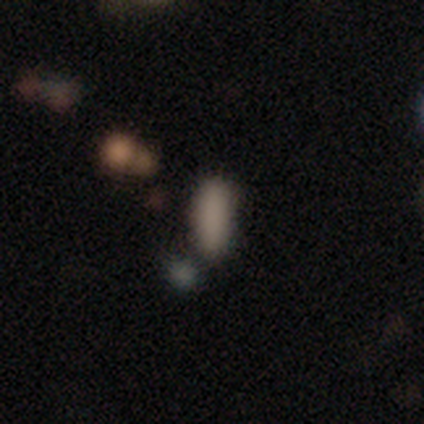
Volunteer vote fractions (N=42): smooth_or_featured: smooth (p=0.76) [alt: star or artifact p=0.19]
how_rounded: in between (p=0.62) [alt: cigar-shaped p=0.38]
merging: none (p=0.68) [alt: minor disturbance p=0.18]